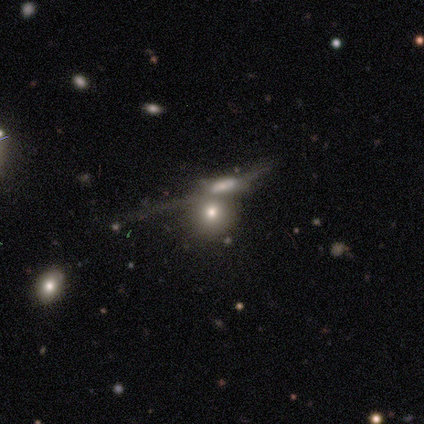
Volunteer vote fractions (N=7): This appears to be a smooth galaxy with no disk features (71%) that is round (60%). Merging: major disturbance (40%, tied with merger).